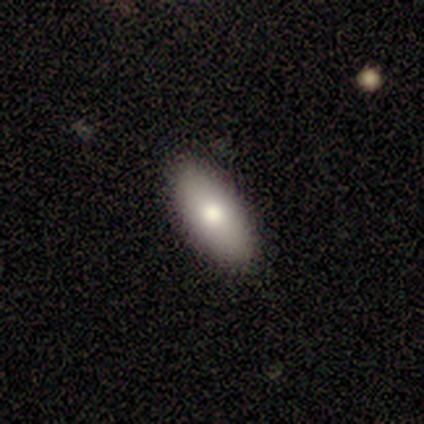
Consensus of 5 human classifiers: This is clearly a smooth galaxy (100%). How rounded: clearly in between (100%). Merging: clearly none (100%).